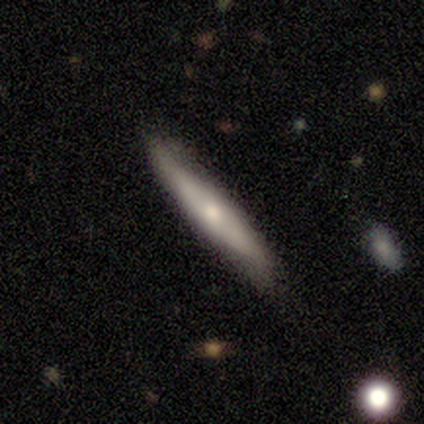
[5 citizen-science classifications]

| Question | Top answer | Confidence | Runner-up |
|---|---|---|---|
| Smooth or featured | smooth | 40% | tied: featured or disk (40%) |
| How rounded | cigar-shaped | 100% | — |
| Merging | none | 75% | minor disturbance (25%) |